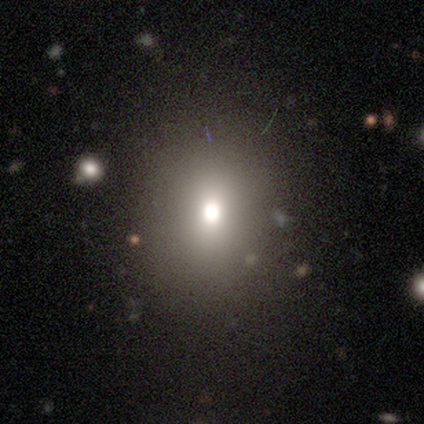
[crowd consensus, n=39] Volunteers were most divided on "how rounded": round: 63%, in between: 37%, cigar-shaped: 0%. More confident: merging — none (88%); smooth or featured — smooth (69%).